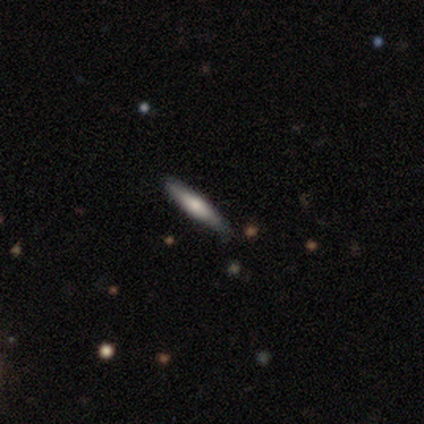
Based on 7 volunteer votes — Smooth or featured: smooth — 71% (featured or disk — 14%)
How rounded: cigar-shaped — 100%
Merging: none — 83% (minor disturbance — 17%)